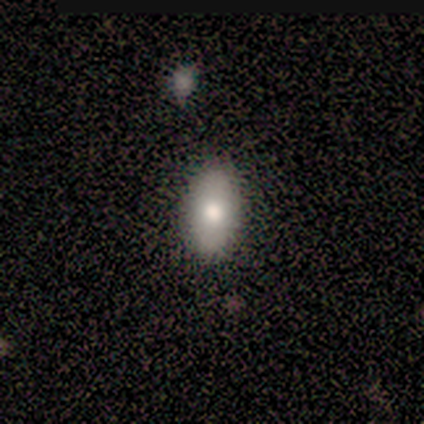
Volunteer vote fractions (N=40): Overall: smooth (85%). How rounded: in between (79%). Merging: none (85%).